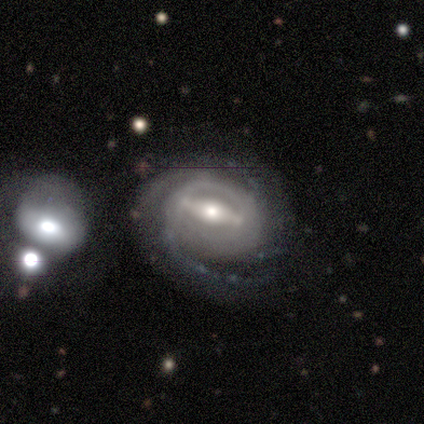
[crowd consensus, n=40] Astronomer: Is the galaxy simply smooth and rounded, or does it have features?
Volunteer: featured or disk — 90%.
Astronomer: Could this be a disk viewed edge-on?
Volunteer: no — 97%.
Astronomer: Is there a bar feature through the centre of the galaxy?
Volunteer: strong — 80%.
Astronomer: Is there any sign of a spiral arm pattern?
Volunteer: yes — 97%.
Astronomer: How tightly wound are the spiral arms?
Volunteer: tight — 53% (runner-up: medium, 41%).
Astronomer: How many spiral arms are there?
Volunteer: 2 — 29% (runner-up: 4, 24%).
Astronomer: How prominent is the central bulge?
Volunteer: moderate — 66%.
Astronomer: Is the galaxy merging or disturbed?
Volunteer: none — 64%.